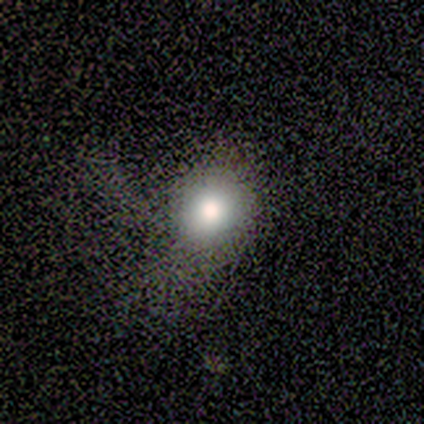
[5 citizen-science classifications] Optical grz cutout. It shows a smooth galaxy with no disk features (80%) that is round (50%, tied with in between). Merging: none (50%, tied with major disturbance).